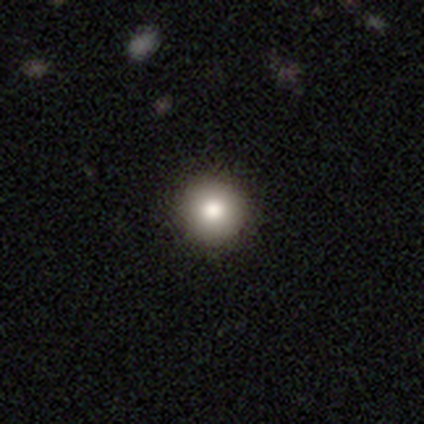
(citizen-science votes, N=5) smooth_or_featured: smooth (p=1.00)
how_rounded: round (p=1.00)
merging: none (p=0.60) [alt: minor disturbance p=0.40]